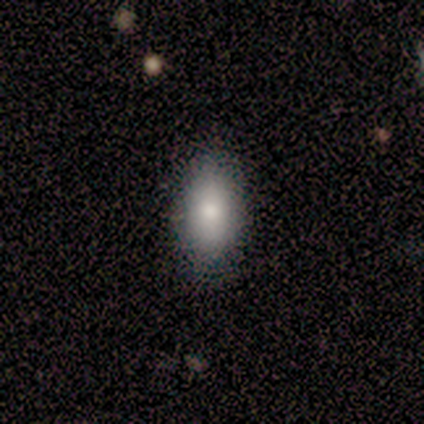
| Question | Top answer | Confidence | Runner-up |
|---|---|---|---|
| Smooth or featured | smooth | 100% | — |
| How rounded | in between | 100% | — |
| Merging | none | 100% | — |